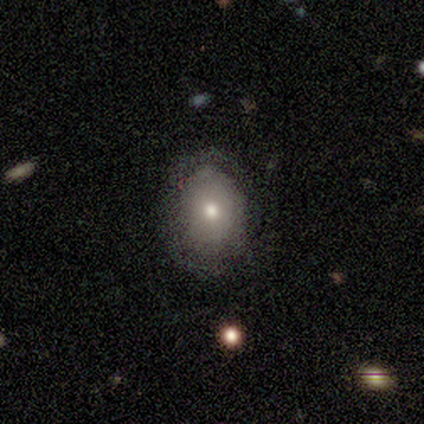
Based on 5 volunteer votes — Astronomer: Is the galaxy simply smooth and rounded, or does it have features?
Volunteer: smooth — 60%.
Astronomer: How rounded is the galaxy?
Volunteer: round — 67%.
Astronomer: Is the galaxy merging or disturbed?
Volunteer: none — 100%.